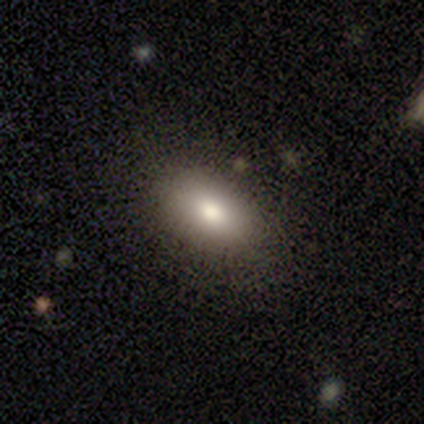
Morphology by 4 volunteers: smooth-or-featured: smooth: 100% | featured or disk: 0% | star or artifact: 0%
  how-rounded: in between: 100% | round: 0% | cigar-shaped: 0%
  merging: none: 50% (tied) | minor disturbance: 50% (tied) | major disturbance: 0% | merger: 0%